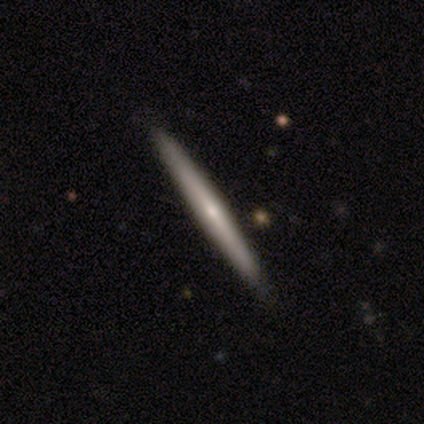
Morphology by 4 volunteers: A featured or disk galaxy (75%) viewed edge-on (100%) with a rounded central bulge (100%).

Vote fractions:
- Smooth or featured? featured or disk: 75% / smooth: 25% / star or artifact: 0%
- Edge-on disk? yes: 100% / no: 0%
- Edge-on bulge? rounded: 100% / boxy: 0% / none: 0%
- Merging? none: 100% / minor disturbance: 0% / major disturbance: 0% / merger: 0%